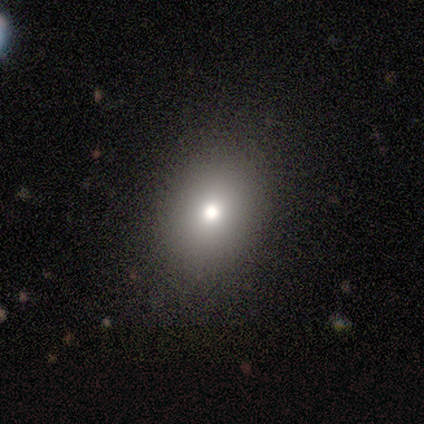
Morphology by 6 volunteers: smooth-or-featured: smooth: 67% | featured or disk: 33% | star or artifact: 0%
  how-rounded: in between: 75% | round: 25% | cigar-shaped: 0%
  merging: none: 83% | minor disturbance: 17% | major disturbance: 0% | merger: 0%